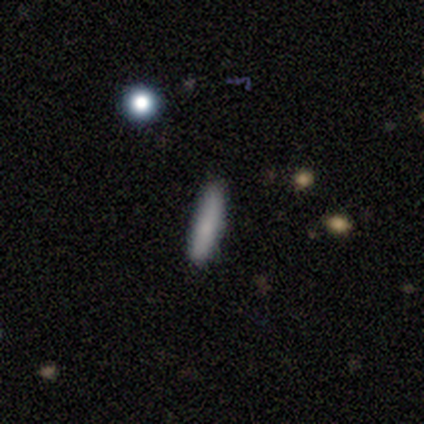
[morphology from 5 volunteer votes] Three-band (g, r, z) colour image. It shows a smooth galaxy with no disk features (80%) that is cigar-shaped (75%). Merging: none (100%).